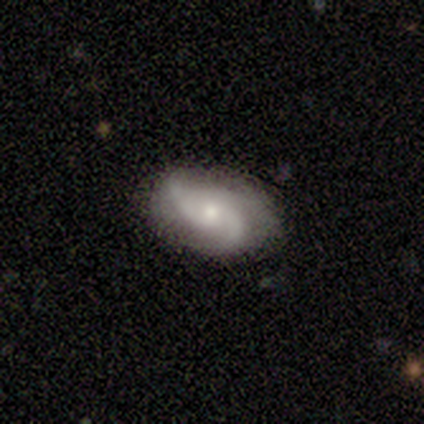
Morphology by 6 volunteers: A featured or disk galaxy (100%) with no bar (100%), 2 (50%, tied with 3) tight (75%) spiral arms (80%) and a small central bulge (100%). Merging: none (50%).